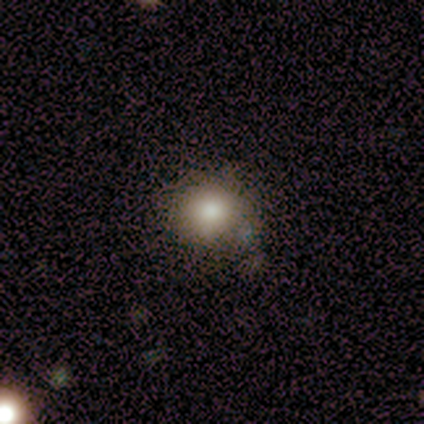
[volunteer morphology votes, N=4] Overall: smooth (75%). How rounded: round (100%). Merging: none (100%).